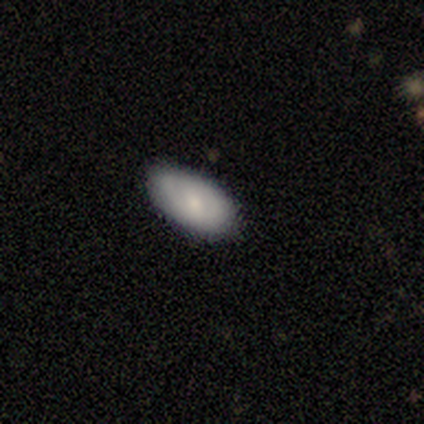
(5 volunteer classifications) A smooth galaxy with no disk features (100%) that is in between round and cigar-shaped (80%).

Vote fractions:
- Smooth or featured? smooth: 100% / featured or disk: 0% / star or artifact: 0%
- How rounded? in between: 80% / cigar-shaped: 20% / round: 0%
- Merging? none: 80% / minor disturbance: 20% / major disturbance: 0% / merger: 0%